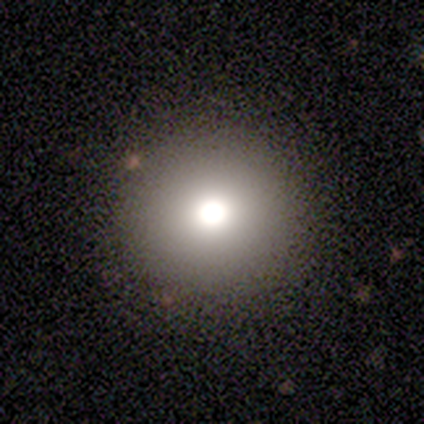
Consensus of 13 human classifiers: This appears to be a smooth galaxy with no disk features (77%) that is round (100%). Merging: none (100%).